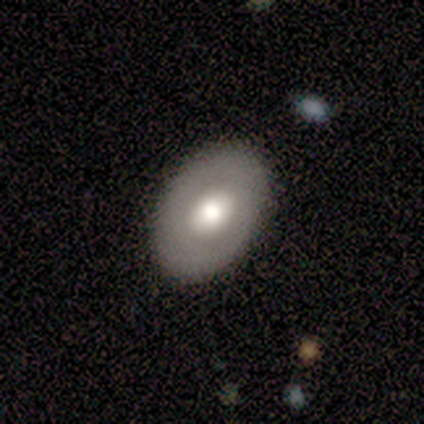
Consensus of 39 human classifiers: Overall: smooth (51%; featured or disk 49%). How rounded: in between (90%). Merging: none (85%).